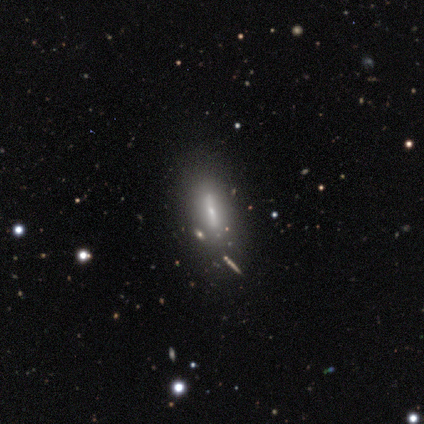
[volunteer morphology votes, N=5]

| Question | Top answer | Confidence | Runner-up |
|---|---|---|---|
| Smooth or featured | featured or disk | 60% | smooth (40%) |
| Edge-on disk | yes | 67% | no (33%) |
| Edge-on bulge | rounded | 100% | — |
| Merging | none | 60% | minor disturbance (20%) |